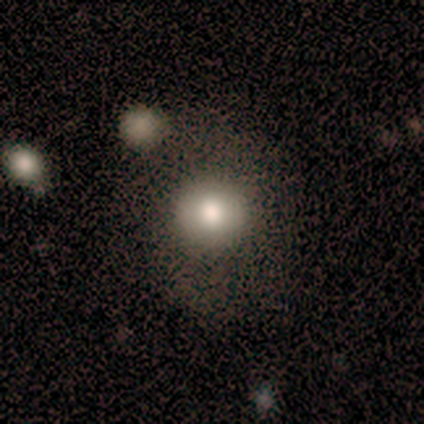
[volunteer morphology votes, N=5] This is clearly a smooth galaxy (80%). How rounded: clearly round (100%). Merging: clearly none (100%).